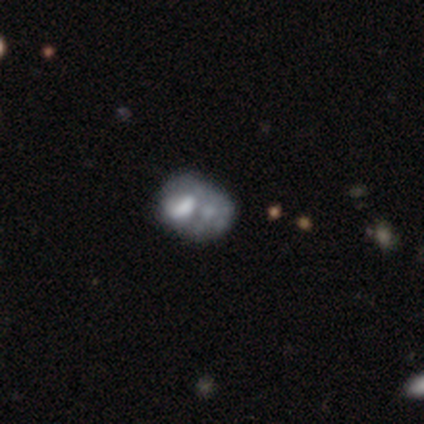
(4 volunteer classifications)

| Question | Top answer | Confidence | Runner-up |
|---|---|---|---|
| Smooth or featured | featured or disk | 75% | smooth (25%) |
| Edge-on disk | no | 100% | — |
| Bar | no | 100% | — |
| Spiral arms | no | 100% | — |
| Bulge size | none | 67% | large (33%) |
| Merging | none | 25% | tied: minor disturbance (25%), major disturbance (25%), merger (25%) |